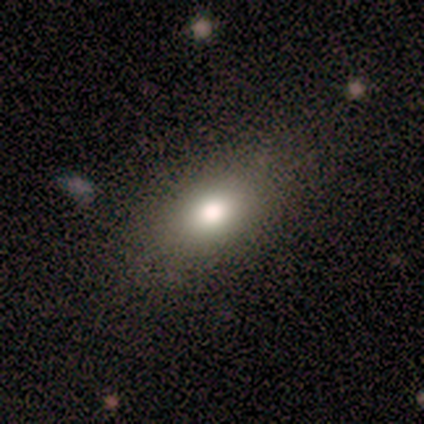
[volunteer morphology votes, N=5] Q: Smooth or featured?
A: smooth (80%); runner-up: featured or disk (20%)
Q: How rounded?
A: in between (75%); runner-up: round (25%)
Q: Merging?
A: none (80%); runner-up: minor disturbance (20%)